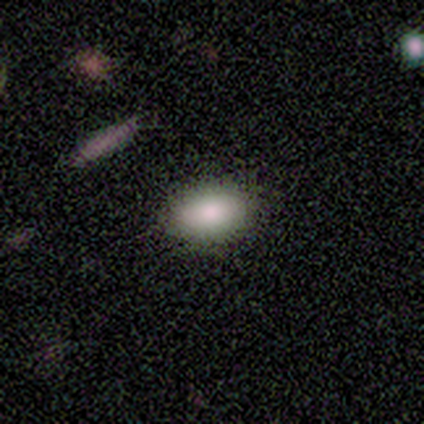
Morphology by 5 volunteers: Smooth or featured? smooth (100%)
How rounded? in between (100%)
Merging? none (100%)